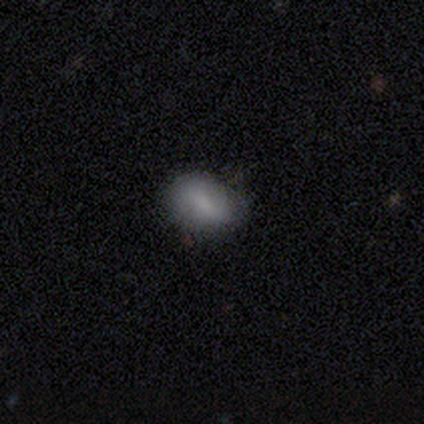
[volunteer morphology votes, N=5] Volunteers were most divided on "smooth or featured": smooth: 80%, featured or disk: 20%, star or artifact: 0%. More confident: how rounded — in between (100%); merging — none (80%).